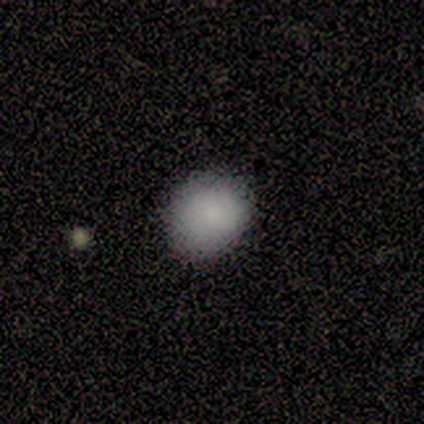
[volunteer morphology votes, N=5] This appears to be a smooth galaxy with no disk features (100%) that is round (80%). Merging: none (60%).